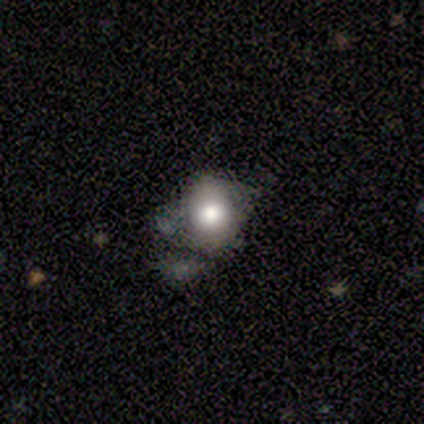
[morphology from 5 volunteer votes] Volunteers were most divided on "merging" (2-way tie): none: 40%, minor disturbance: 40%, major disturbance: 20%, merger: 0%. More confident: bar — no (100%); spiral arms — no (100%); smooth or featured — featured or disk (80%); edge-on disk — no (75%); bulge size — moderate (67%).